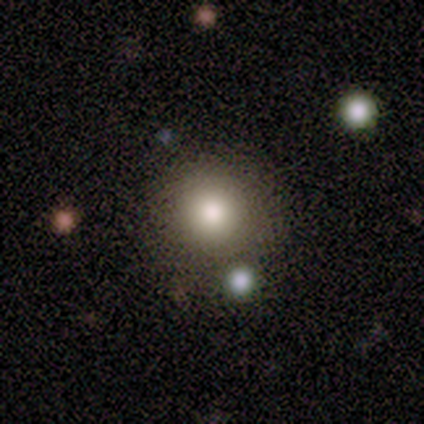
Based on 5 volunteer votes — This appears to be a star or artifact, not a galaxy (60%).